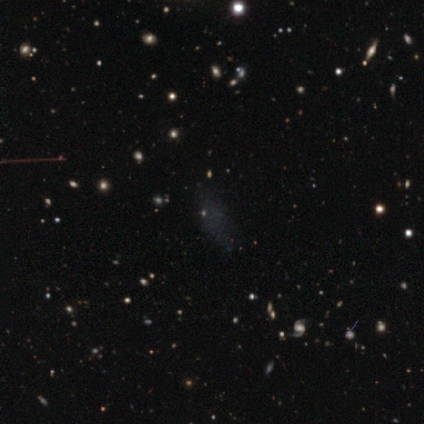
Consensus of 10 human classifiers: This appears to be a featured or disk galaxy (40%, tied with star or artifact) with no bar (100%), no spiral arms (100%) and no central bulge (100%). Merging: none (67%).